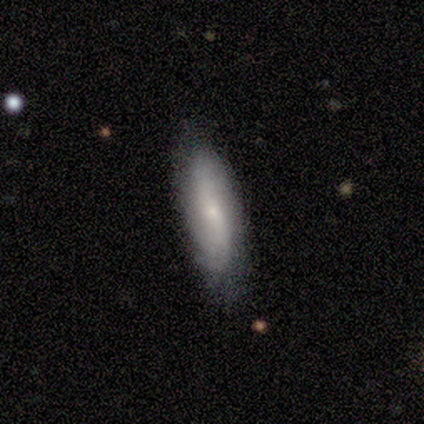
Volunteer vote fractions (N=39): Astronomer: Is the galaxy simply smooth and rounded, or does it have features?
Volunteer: featured or disk — 49% (runner-up: smooth, 44%).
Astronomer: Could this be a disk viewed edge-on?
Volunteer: no — 79%.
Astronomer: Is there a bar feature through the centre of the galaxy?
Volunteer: no — 80%.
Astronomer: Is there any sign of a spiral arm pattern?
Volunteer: yes — 60% (runner-up: no, 40%).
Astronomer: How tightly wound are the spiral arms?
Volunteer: tight — 56% (runner-up: loose, 33%).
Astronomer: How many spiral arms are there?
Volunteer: can't tell — 89%.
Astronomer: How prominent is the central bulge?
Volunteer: small — 80%.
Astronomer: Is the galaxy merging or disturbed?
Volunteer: none — 78%.